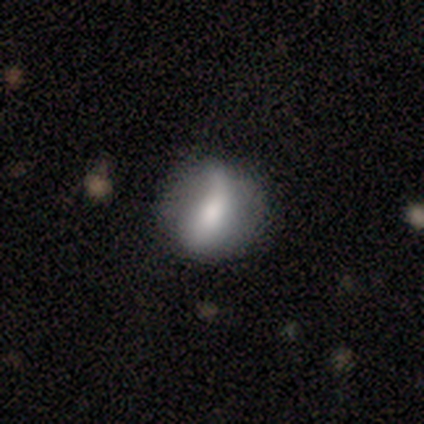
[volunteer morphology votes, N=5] A smooth galaxy with no disk features (100%) that is round (80%). Merging: none (60%).